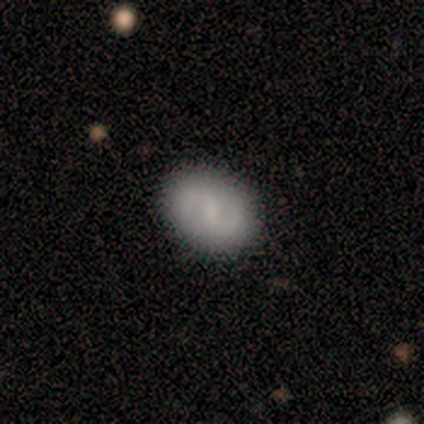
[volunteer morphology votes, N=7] Smooth or featured?
  - smooth: 57% *
  - featured or disk: 43%
  - star or artifact: 0%
How rounded?
  - round: 50% * (tied)
  - in between: 50% * (tied)
  - cigar-shaped: 0%
Merging?
  - none: 71% *
  - minor disturbance: 29%
  - major disturbance: 0%
  - merger: 0%